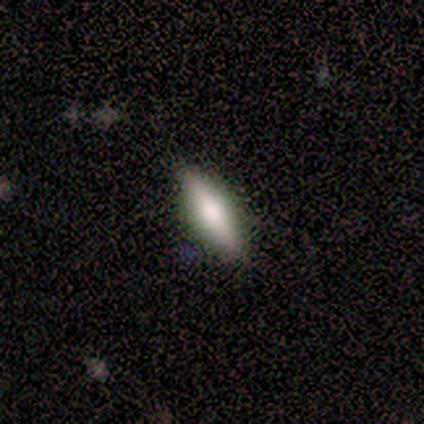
A smooth galaxy with no disk features (60%) that is cigar-shaped (67%).

Vote fractions:
- Smooth or featured? smooth: 60% / featured or disk: 40% / star or artifact: 0%
- How rounded? cigar-shaped: 67% / in between: 33% / round: 0%
- Merging? none: 60% / minor disturbance: 20% / merger: 20% / major disturbance: 0%